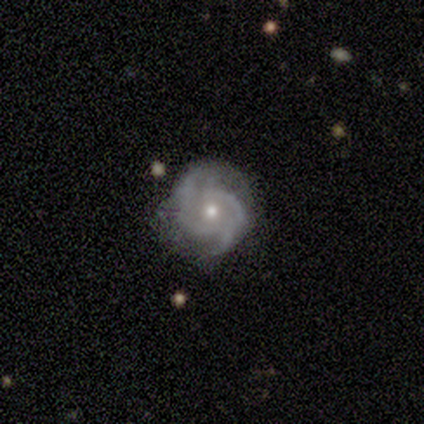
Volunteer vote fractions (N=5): Q: Smooth or featured?
A: featured or disk (100%)
Q: Edge-on disk?
A: no (100%)
Q: Bar?
A: no (60%); runner-up: strong (20%)
Q: Spiral arms?
A: yes (100%)
Q: Spiral winding?
A: medium (80%); runner-up: tight (20%)
Q: Spiral arm count?
A: 2 (60%); runner-up: 3 (20%)
Q: Bulge size?
A: small (60%); runner-up: moderate (40%)
Q: Merging?
A: none (60%); runner-up: minor disturbance (40%)